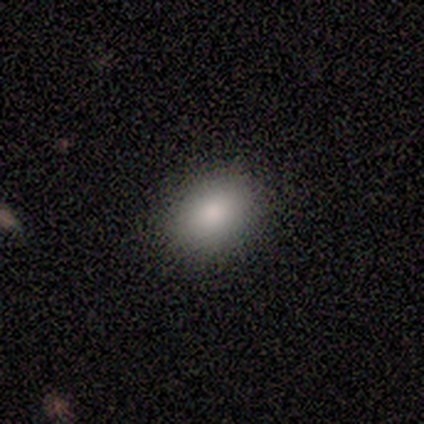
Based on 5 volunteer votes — smooth_or_featured: smooth (p=1.00)
how_rounded: in between (p=1.00)
merging: none (p=0.80) [alt: minor disturbance p=0.20]